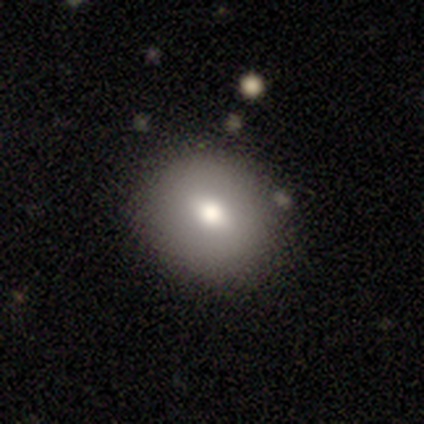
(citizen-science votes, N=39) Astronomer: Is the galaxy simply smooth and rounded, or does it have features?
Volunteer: smooth — 62%.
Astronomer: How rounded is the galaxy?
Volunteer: round — 62%.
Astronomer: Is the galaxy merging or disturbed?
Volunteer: none — 80%.